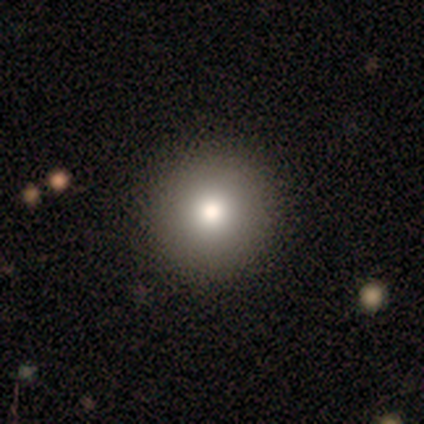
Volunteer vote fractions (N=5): This is clearly a smooth galaxy (80%). How rounded: clearly round (100%). Merging: clearly none (80%).